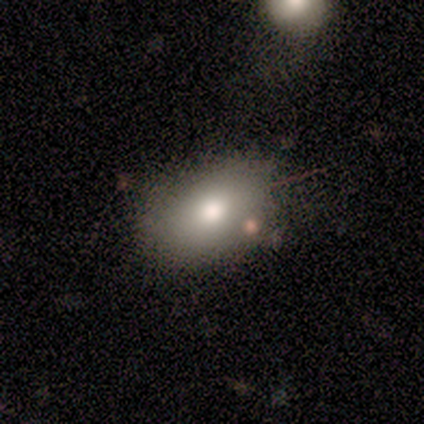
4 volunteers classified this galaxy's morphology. This appears to be a smooth galaxy with no disk features (50%) that is in between round and cigar-shaped (100%). Merging: none (100%).